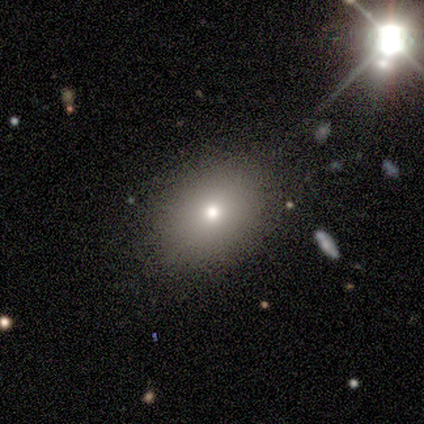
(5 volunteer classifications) smooth_or_featured: smooth (p=0.80) [alt: star or artifact p=0.20]
how_rounded: in between (p=0.75) [alt: round p=0.25]
merging: none (p=1.00)